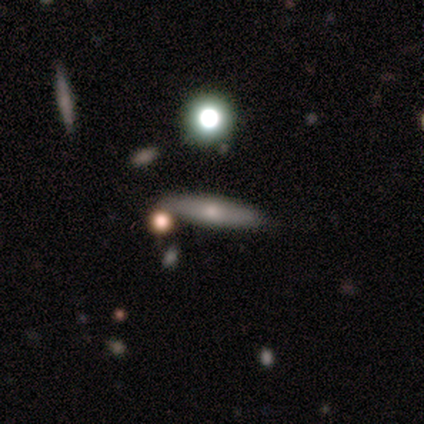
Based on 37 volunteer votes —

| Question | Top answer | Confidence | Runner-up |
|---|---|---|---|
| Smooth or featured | featured or disk | 57% | smooth (32%) |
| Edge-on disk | yes | 76% | no (24%) |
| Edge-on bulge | rounded | 75% | none (19%) |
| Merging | none | 82% | minor disturbance (9%) |